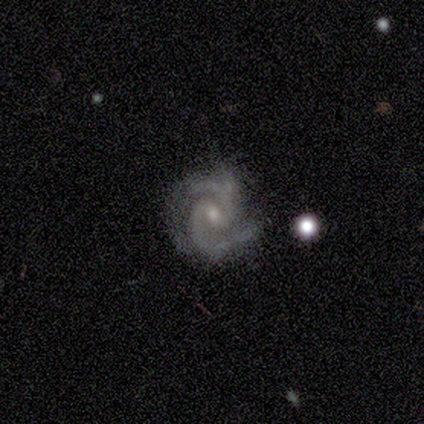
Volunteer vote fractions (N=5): A featured or disk galaxy (100%) with a weak bar (60%), 2 (100%) medium (80%) spiral arms (100%) and a moderate central bulge (60%).

Vote fractions:
- Smooth or featured? featured or disk: 100% / smooth: 0% / star or artifact: 0%
- Edge-on disk? no: 100% / yes: 0%
- Bar? weak: 60% / strong: 20% / no: 20%
- Spiral arms? yes: 100% / no: 0%
- Spiral winding? medium: 80% / tight: 20% / loose: 0%
- Spiral arm count? 2: 100% / 1: 0% / 3: 0% / 4: 0% / more than 4: 0% / can't tell: 0%
- Bulge size? moderate: 60% / small: 40% / dominant: 0% / large: 0% / none: 0%
- Merging? none: 80% / major disturbance: 20% / minor disturbance: 0% / merger: 0%